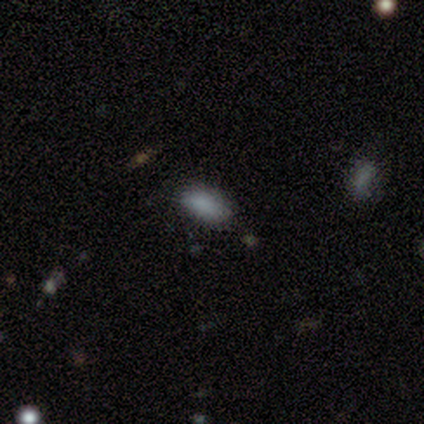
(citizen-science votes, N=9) Overall: smooth (78%). How rounded: in between (86%). Merging: none (71%).